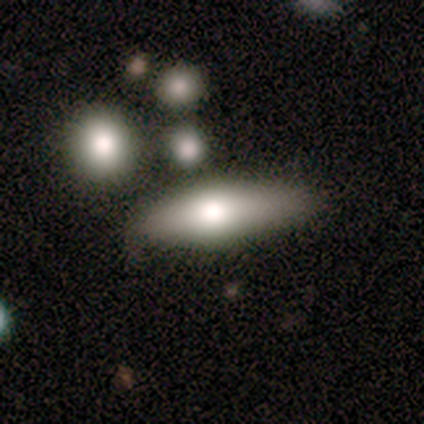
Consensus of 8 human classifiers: Overall: smooth (88%). How rounded: cigar-shaped (71%). Merging: none (62%; minor disturbance 25%).